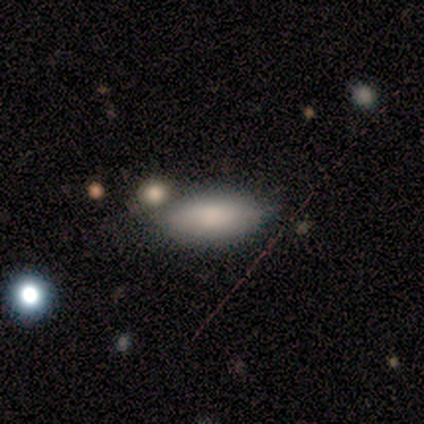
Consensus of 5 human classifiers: A smooth galaxy with no disk features (100%) that is in between round and cigar-shaped (80%).

Vote fractions:
- Smooth or featured? smooth: 100% / featured or disk: 0% / star or artifact: 0%
- How rounded? in between: 80% / cigar-shaped: 20% / round: 0%
- Merging? none: 60% / minor disturbance: 20% / merger: 20% / major disturbance: 0%